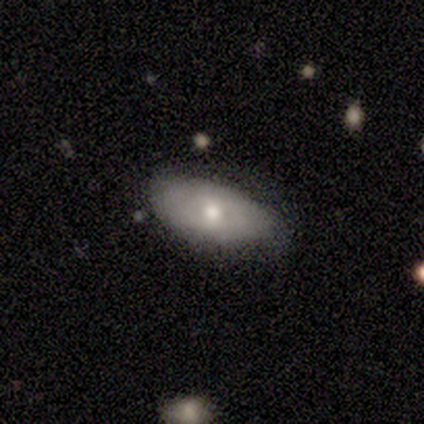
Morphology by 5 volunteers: Q: Smooth or featured?
A: smooth (60%); runner-up: featured or disk (40%)
Q: How rounded?
A: in between (100%)
Q: Merging?
A: none (80%); runner-up: minor disturbance (20%)